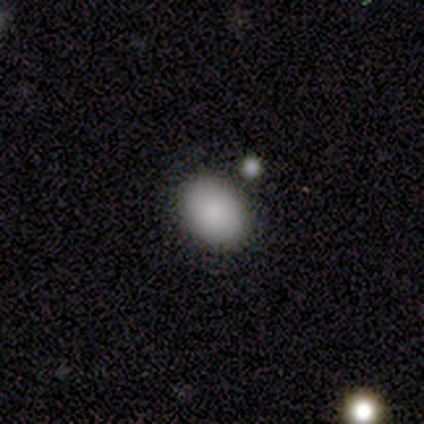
This appears to be a smooth galaxy with no disk features (80%) that is in between round and cigar-shaped (75%). Merging: none (75%).